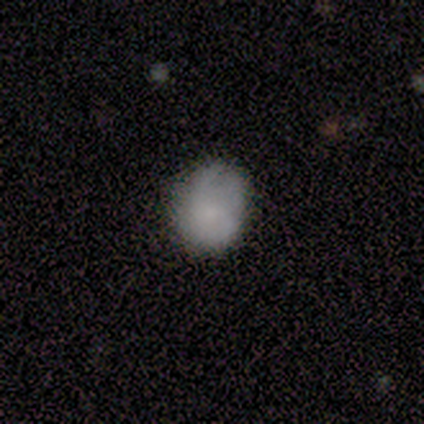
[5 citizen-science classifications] Q: Smooth or featured?
A: smooth (80%); runner-up: featured or disk (20%)
Q: How rounded?
A: in between (100%)
Q: Merging?
A: none (60%); runner-up: minor disturbance (20%)